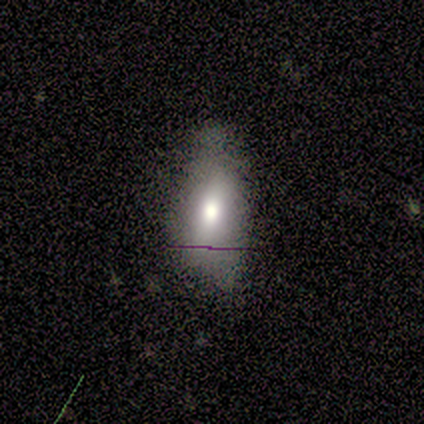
smooth_or_featured: smooth (p=0.60) [alt: featured or disk p=0.20]
how_rounded: in between (p=1.00)
merging: none (p=0.75) [alt: minor disturbance p=0.25]